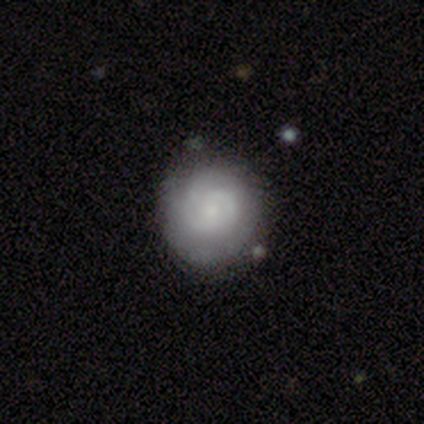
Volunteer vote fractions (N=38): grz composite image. It shows a featured or disk galaxy (55%) with no bar (65%), 2 (41%) tight (47%) spiral arms (85%) and a small central bulge (50%). Merging: none (56%).